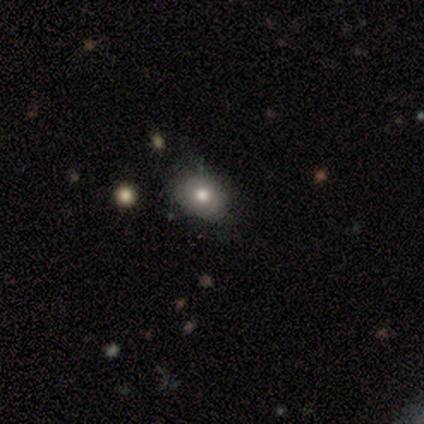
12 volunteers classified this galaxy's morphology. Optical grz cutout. It shows a smooth galaxy with no disk features (58%) that is in between round and cigar-shaped (86%). Merging: none (73%).